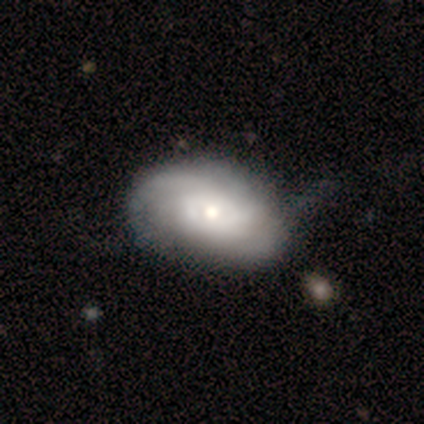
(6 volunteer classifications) Volunteers were most divided on "smooth or featured": featured or disk: 67%, smooth: 33%, star or artifact: 0%. More confident: edge-on disk — no (100%); bar — no (100%); spiral arms — yes (75%); bulge size — moderate (75%); spiral winding — tight (67%); spiral arm count — 2 (67%); merging — none (50%).